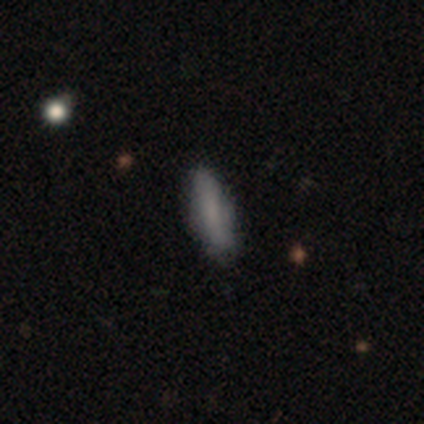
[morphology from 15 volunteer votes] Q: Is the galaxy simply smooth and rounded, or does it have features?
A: smooth — 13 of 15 (87%).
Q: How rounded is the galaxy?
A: cigar-shaped — 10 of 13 (77%).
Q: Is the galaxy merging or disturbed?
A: none — 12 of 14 (86%).